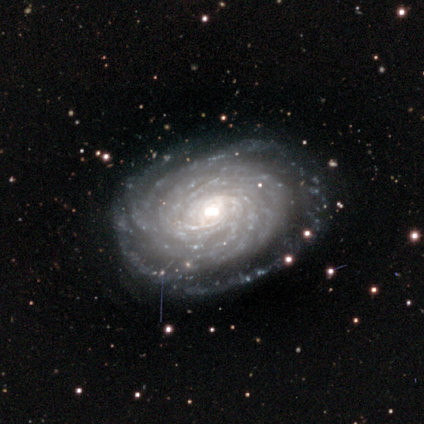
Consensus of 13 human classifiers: Smooth or featured?
  - featured or disk: 92% *
  - smooth: 8%
  - star or artifact: 0%
Edge-on disk?
  - no: 92% *
  - yes: 8%
Bar?
  - no: 64% *
  - weak: 36%
  - strong: 0%
Spiral arms?
  - yes: 100% *
  - no: 0%
Spiral winding?
  - tight: 91% *
  - medium: 9%
  - loose: 0%
Spiral arm count?
  - more than 4: 55% *
  - can't tell: 45%
  - 1: 0%
  - 2: 0%
  - 3: 0%
  - 4: 0%
Bulge size?
  - moderate: 55% *
  - small: 27%
  - large: 18%
  - dominant: 0%
  - none: 0%
Merging?
  - none: 92% *
  - merger: 8%
  - minor disturbance: 0%
  - major disturbance: 0%